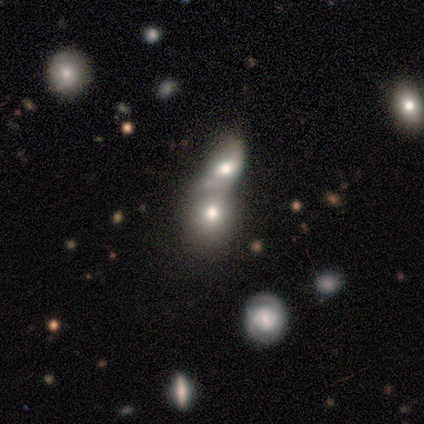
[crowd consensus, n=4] Q: Smooth or featured?
A: smooth (75%); runner-up: star or artifact (25%)
Q: How rounded?
A: round (67%); runner-up: in between (33%)
Q: Merging?
A: none (33%); tied with: major disturbance (33%); merger (33%)